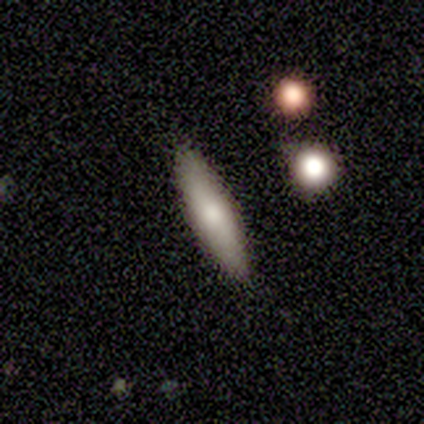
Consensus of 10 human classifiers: A smooth galaxy with no disk features (50%, tied with featured or disk) that is cigar-shaped (80%). Merging: none (100%).